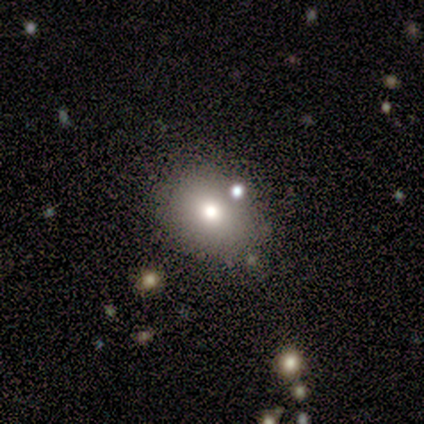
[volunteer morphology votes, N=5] smooth 60%, featured or disk 40%, star or artifact 0%. Down the decision tree: how rounded — in between (100%); merging — none (80%).